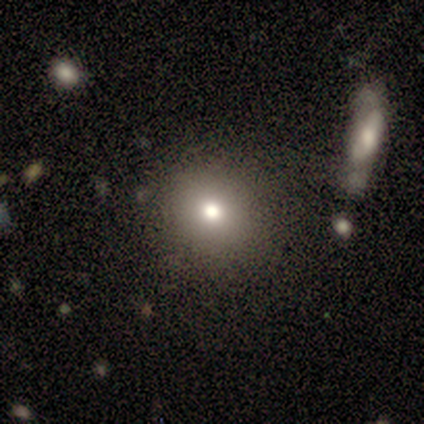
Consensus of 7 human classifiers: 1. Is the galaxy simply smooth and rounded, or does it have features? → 43% featured or disk, 29% smooth, 29% star or artifact.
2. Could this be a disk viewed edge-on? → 100% no, 0% yes.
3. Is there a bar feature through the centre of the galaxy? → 100% no, 0% strong, 0% weak.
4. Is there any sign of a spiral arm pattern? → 100% no, 0% yes.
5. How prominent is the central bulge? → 100% moderate, 0% dominant, 0% large, 0% small, 0% none.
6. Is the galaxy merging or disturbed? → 100% none, 0% minor disturbance, 0% major disturbance, 0% merger.